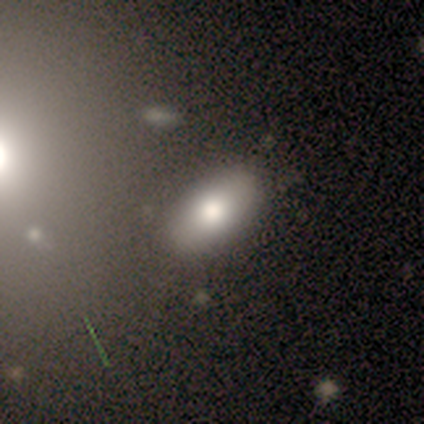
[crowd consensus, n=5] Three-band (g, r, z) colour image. It shows a smooth galaxy with no disk features (100%) that is in between round and cigar-shaped (60%). Merging: none (80%).